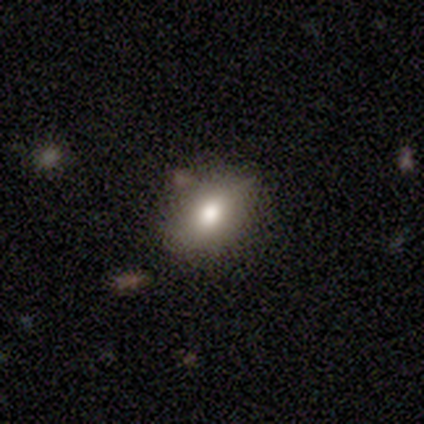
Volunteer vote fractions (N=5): A smooth galaxy with no disk features (80%) that is in between round and cigar-shaped (75%).

Vote fractions:
- Smooth or featured? smooth: 80% / featured or disk: 20% / star or artifact: 0%
- How rounded? in between: 75% / round: 25% / cigar-shaped: 0%
- Merging? none: 40% (tied) / minor disturbance: 40% (tied) / major disturbance: 20% / merger: 0%